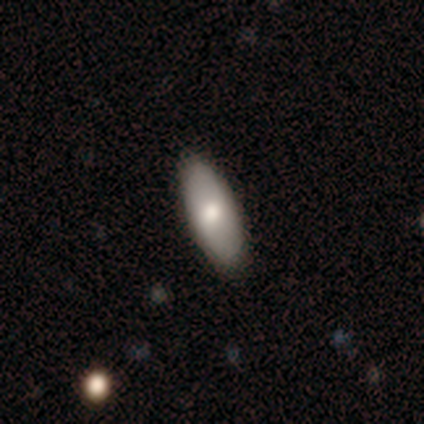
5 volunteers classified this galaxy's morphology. A smooth galaxy with no disk features (80%) that is in between round and cigar-shaped (100%).

Vote fractions:
- Smooth or featured? smooth: 80% / featured or disk: 20% / star or artifact: 0%
- How rounded? in between: 100% / round: 0% / cigar-shaped: 0%
- Merging? none: 100% / minor disturbance: 0% / major disturbance: 0% / merger: 0%